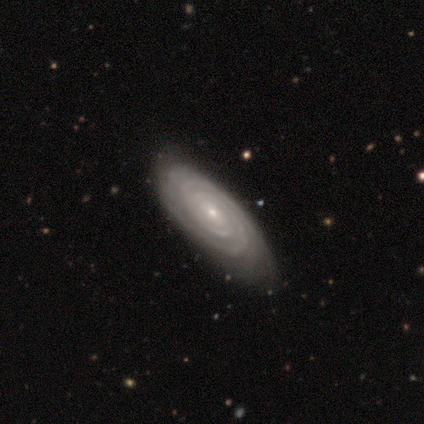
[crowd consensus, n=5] Smooth or featured: featured or disk — 60% (smooth — 20%)
Edge-on disk: no — 100%
Bar: no — 67% (weak — 33%)
Spiral arms: yes — 67% (no — 33%)
Spiral winding: tight — 100%
Spiral arm count: 2 — 50% (tied with more than 4 — 50%)
Bulge size: small — 100%
Merging: none — 75% (minor disturbance — 25%)